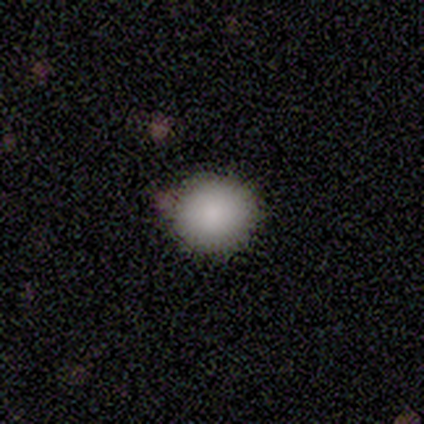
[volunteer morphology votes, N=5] Q: Smooth or featured?
A: smooth (100%)
Q: How rounded?
A: round (100%)
Q: Merging?
A: none (80%); runner-up: minor disturbance (20%)